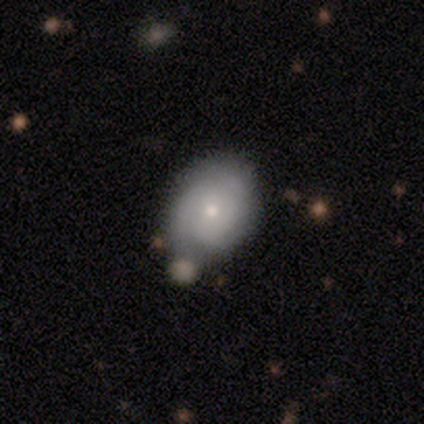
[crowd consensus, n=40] Smooth or featured?
  - smooth: 50% *
  - featured or disk: 48%
  - star or artifact: 2%
How rounded?
  - in between: 60% *
  - round: 40%
  - cigar-shaped: 0%
Merging?
  - none: 67% *
  - minor disturbance: 26%
  - merger: 8%
  - major disturbance: 0%